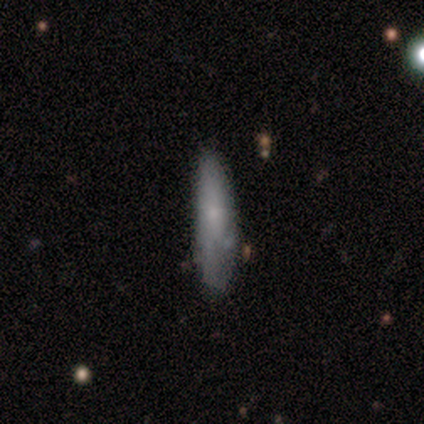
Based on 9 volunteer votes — Smooth or featured?
  - smooth: 67% *
  - featured or disk: 33%
  - star or artifact: 0%
How rounded?
  - cigar-shaped: 67% *
  - in between: 33%
  - round: 0%
Merging?
  - none: 44% * (tied)
  - minor disturbance: 44% * (tied)
  - merger: 11%
  - major disturbance: 0%